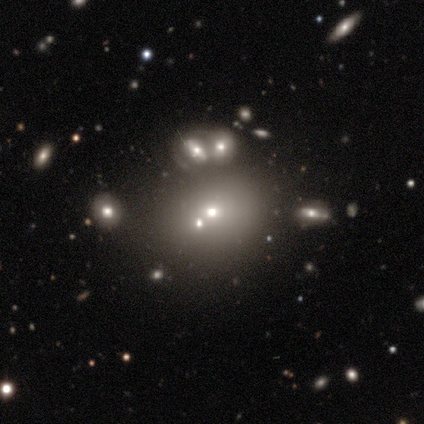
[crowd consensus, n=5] Q: Smooth or featured?
A: smooth (80%); runner-up: featured or disk (20%)
Q: How rounded?
A: round (75%); runner-up: in between (25%)
Q: Merging?
A: none (60%); runner-up: major disturbance (20%)